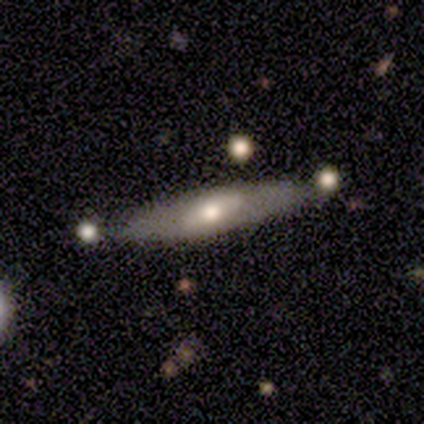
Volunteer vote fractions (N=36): Q: Smooth or featured?
A: featured or disk (64%); runner-up: smooth (31%)
Q: Edge-on disk?
A: yes (65%); runner-up: no (35%)
Q: Edge-on bulge?
A: rounded (80%); runner-up: none (20%)
Q: Merging?
A: none (76%); runner-up: minor disturbance (18%)